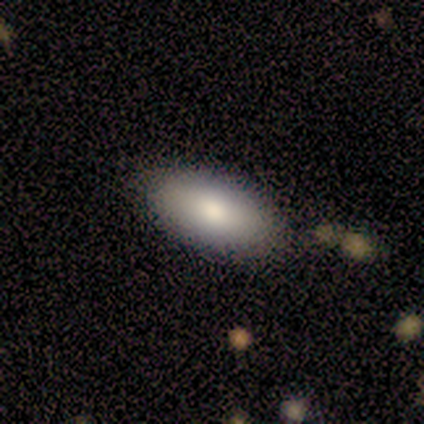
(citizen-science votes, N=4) Overall: smooth (100%). How rounded: round (50%, tied with in between). Merging: none (75%).